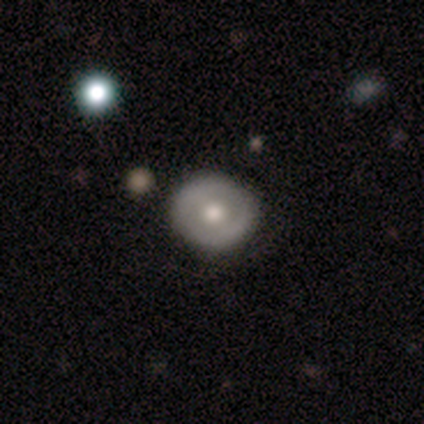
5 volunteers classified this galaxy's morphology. This is likely a smooth galaxy (60%). How rounded: clearly round (100%). Merging: clearly none (100%).